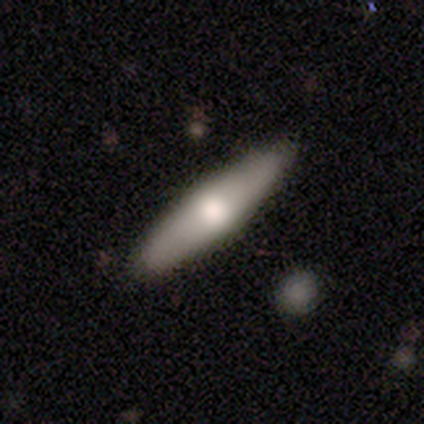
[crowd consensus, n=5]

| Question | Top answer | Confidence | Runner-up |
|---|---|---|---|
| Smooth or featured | smooth | 80% | featured or disk (20%) |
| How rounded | cigar-shaped | 75% | in between (25%) |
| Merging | none | 100% | — |